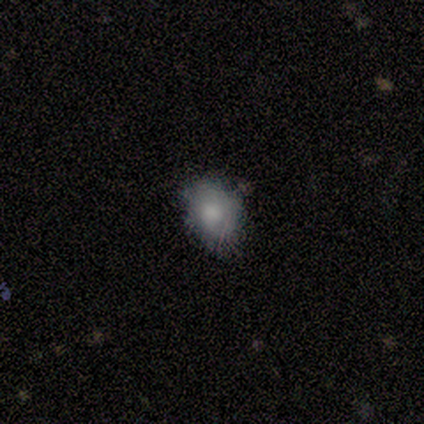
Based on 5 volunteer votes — Smooth or featured: smooth — 80% (featured or disk — 20%)
How rounded: in between — 75% (round — 25%)
Merging: none — 80% (minor disturbance — 20%)